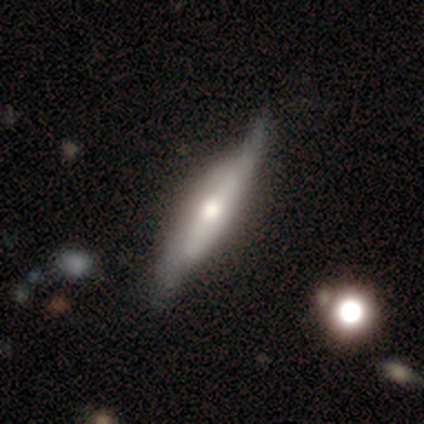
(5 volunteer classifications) Overall: featured or disk (60%; smooth 40%). Edge-on disk: yes (67%; no 33%). Edge-on bulge: rounded (100%). Merging: none (60%; minor disturbance 20%).